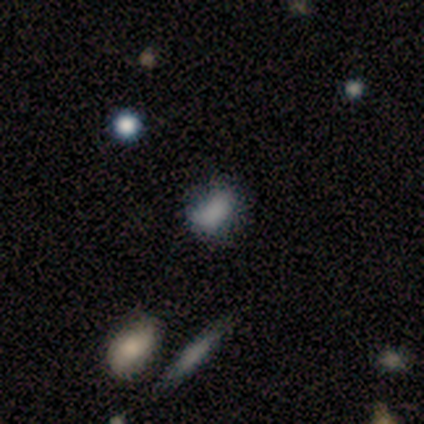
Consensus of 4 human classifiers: Overall: smooth (75%). How rounded: in between (100%). Merging: minor disturbance (67%; merger 33%).